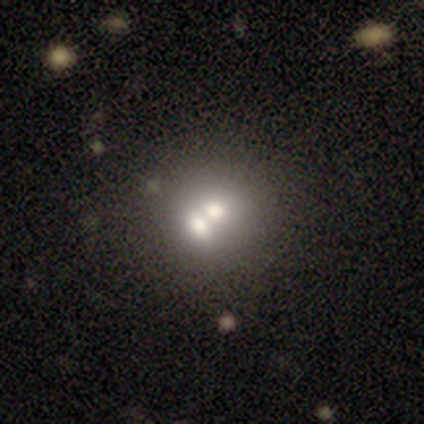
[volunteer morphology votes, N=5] type=smooth (80%); roundness=round (100%); merging=none (40%, tied with merger).